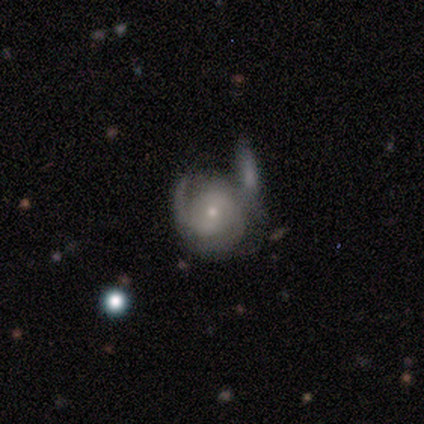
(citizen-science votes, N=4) Smooth or featured?
  - featured or disk: 75% *
  - star or artifact: 25%
  - smooth: 0%
Edge-on disk?
  - no: 100% *
  - yes: 0%
Bar?
  - strong: 33% * (tied)
  - weak: 33% * (tied)
  - no: 33% * (tied)
Spiral arms?
  - yes: 100% *
  - no: 0%
Spiral winding?
  - tight: 100% *
  - medium: 0%
  - loose: 0%
Spiral arm count?
  - 2: 67% *
  - 3: 33%
  - 1: 0%
  - 4: 0%
  - more than 4: 0%
  - can't tell: 0%
Bulge size?
  - small: 100% *
  - dominant: 0%
  - large: 0%
  - moderate: 0%
  - none: 0%
Merging?
  - none: 33% * (tied)
  - major disturbance: 33% * (tied)
  - merger: 33% * (tied)
  - minor disturbance: 0%